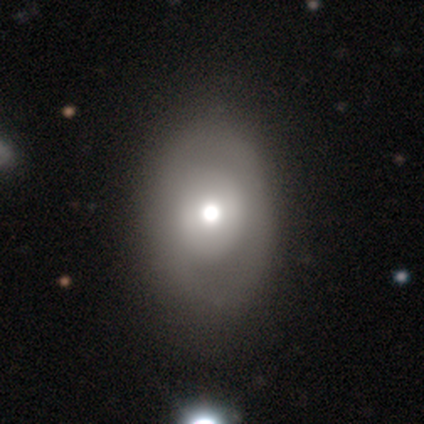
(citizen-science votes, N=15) smooth_or_featured: smooth (p=0.53) [alt: featured or disk p=0.40]
how_rounded: in between (p=0.62) [alt: round p=0.38]
merging: none (p=0.79) [alt: major disturbance p=0.14]